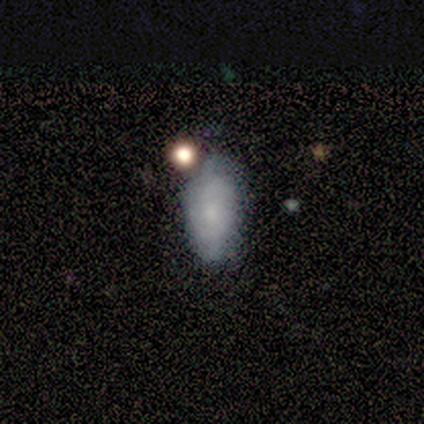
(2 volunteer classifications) This is clearly a smooth galaxy (100%). How rounded: possibly in between (50%, tied with cigar-shaped). Merging: clearly minor disturbance (100%).